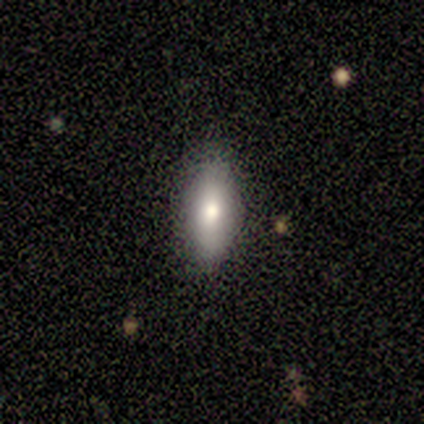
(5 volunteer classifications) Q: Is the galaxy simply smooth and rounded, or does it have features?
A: smooth — 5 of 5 (100%).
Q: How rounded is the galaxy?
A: in between — 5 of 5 (100%).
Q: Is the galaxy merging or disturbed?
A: none — 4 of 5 (80%).